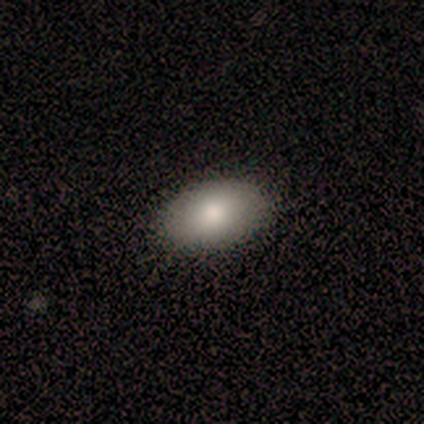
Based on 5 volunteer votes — Overall: smooth (80%). How rounded: in between (75%). Merging: none (100%).